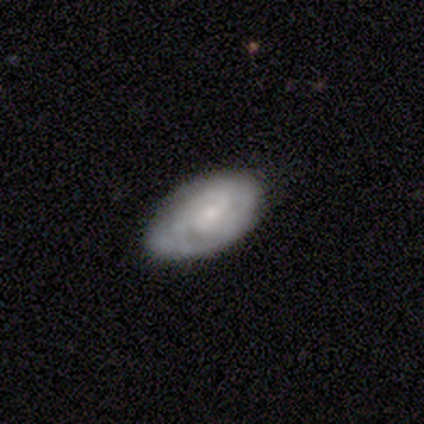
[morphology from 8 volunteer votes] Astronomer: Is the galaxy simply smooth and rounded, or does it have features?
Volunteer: featured or disk — 75%.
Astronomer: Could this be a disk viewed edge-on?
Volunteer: no — 83%.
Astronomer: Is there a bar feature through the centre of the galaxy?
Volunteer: no — 60% (runner-up: weak, 40%).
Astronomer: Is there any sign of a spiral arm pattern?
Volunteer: yes — 100%.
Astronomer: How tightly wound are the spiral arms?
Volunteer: tight — 60% (runner-up: medium, 40%).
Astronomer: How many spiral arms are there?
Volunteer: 2 — 60%.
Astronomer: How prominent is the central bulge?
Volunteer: small — 80%.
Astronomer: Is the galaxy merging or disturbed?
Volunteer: none — 57% (runner-up: minor disturbance, 43%).